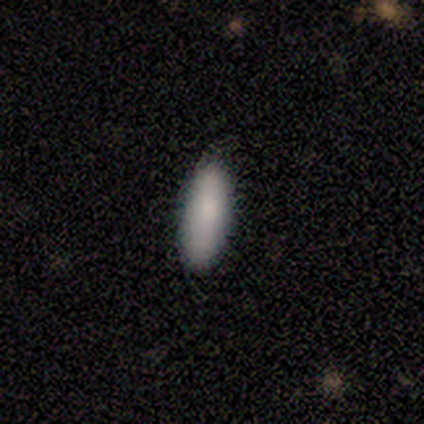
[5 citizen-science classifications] Smooth or featured?
  - smooth: 100% *
  - featured or disk: 0%
  - star or artifact: 0%
How rounded?
  - in between: 80% *
  - cigar-shaped: 20%
  - round: 0%
Merging?
  - none: 80% *
  - major disturbance: 20%
  - minor disturbance: 0%
  - merger: 0%